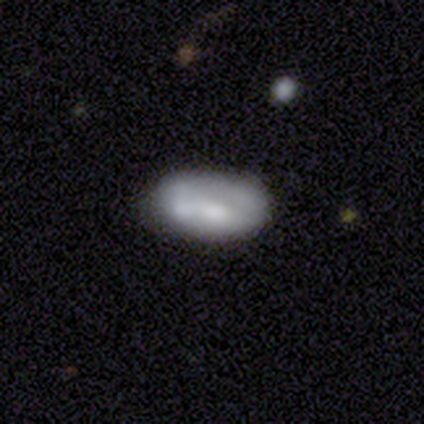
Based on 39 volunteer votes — Smooth or featured? smooth (49%)
How rounded? in between (100%)
Merging? none (71%)